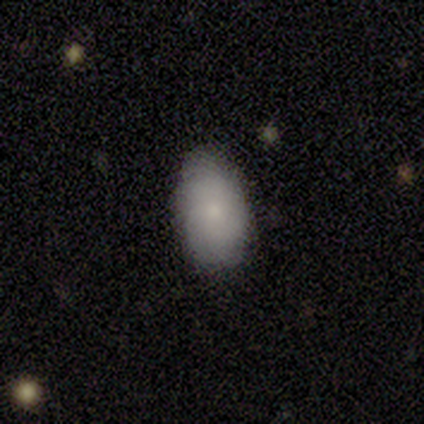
smooth-or-featured: smooth: 71% | featured or disk: 29% | star or artifact: 0%
  how-rounded: in between: 100% | round: 0% | cigar-shaped: 0%
  merging: none: 100% | minor disturbance: 0% | major disturbance: 0% | merger: 0%